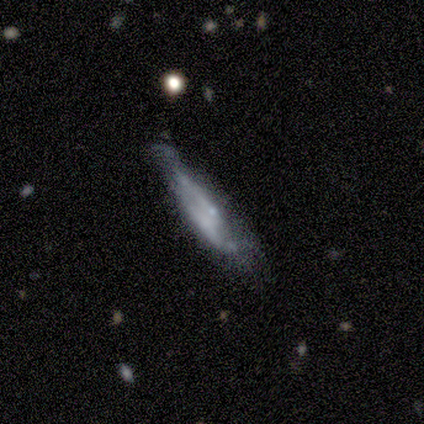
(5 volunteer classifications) featured or disk 80%, smooth 20%, star or artifact 0%. Down the decision tree: edge-on disk — no (100%); bar — no (100%); spiral arms — yes (50%, tied with no); spiral arm count — 2 (50%, tied with can't tell); spiral winding — tight (50%, tied with loose); bulge size — small (75%); merging — none (60%).